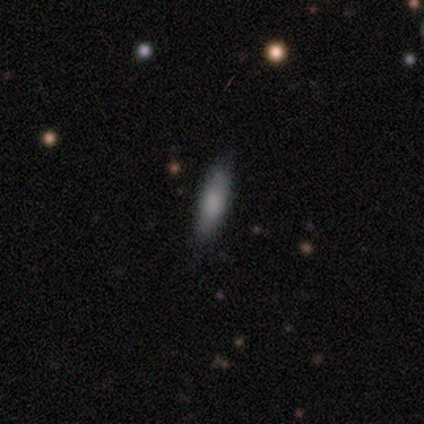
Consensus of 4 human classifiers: Smooth or featured: smooth — 75% (featured or disk — 25%)
How rounded: in between — 67% (cigar-shaped — 33%)
Merging: none — 75% (major disturbance — 25%)